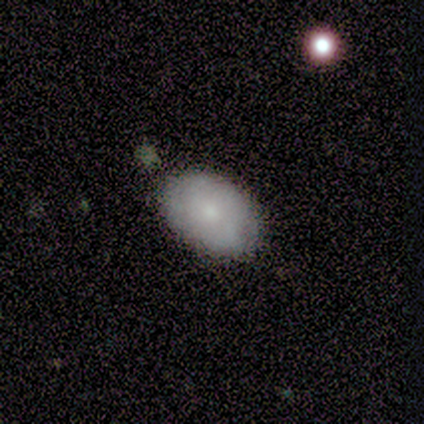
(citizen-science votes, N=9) Morphology: type=smooth (78%); roundness=in between (86%); merging=none (88%).